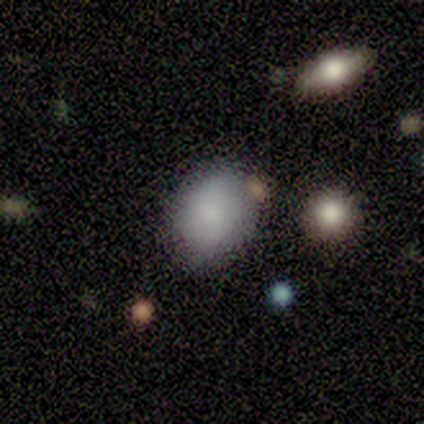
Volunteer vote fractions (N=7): Q: Smooth or featured?
A: smooth (86%); runner-up: featured or disk (14%)
Q: How rounded?
A: round (50%); tied with: in between (50%)
Q: Merging?
A: none (71%); runner-up: minor disturbance (14%)